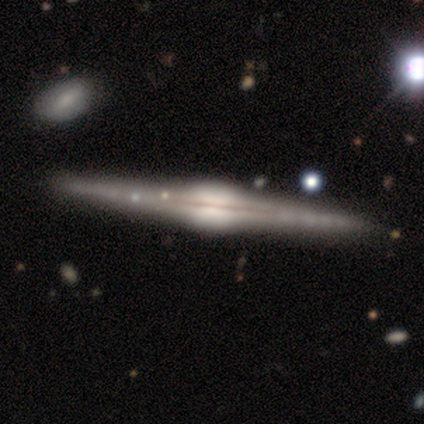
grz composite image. It shows a featured or disk galaxy (100%) viewed edge-on (80%) with a rounded central bulge (75%). Merging: none (100%).